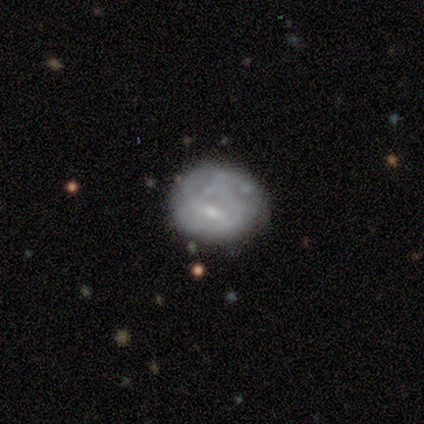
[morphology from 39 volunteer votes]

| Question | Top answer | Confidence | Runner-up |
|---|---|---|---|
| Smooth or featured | featured or disk | 51% | smooth (44%) |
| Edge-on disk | no | 100% | — |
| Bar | no | 75% | weak (20%) |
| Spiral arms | no | 80% | yes (20%) |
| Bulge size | small | 55% | none (30%) |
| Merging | none | 73% | minor disturbance (11%) |